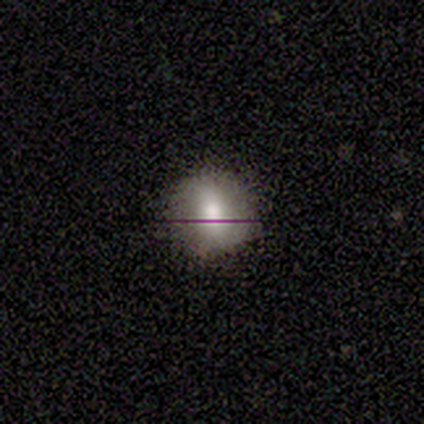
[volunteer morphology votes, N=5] smooth-or-featured: smooth: 80% | featured or disk: 20% | star or artifact: 0%
  how-rounded: round: 100% | in between: 0% | cigar-shaped: 0%
  merging: none: 100% | minor disturbance: 0% | major disturbance: 0% | merger: 0%